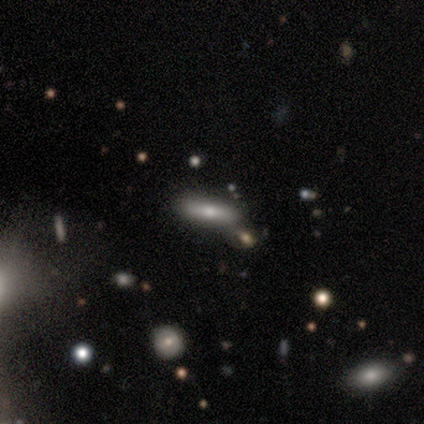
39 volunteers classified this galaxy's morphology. This is possibly a smooth galaxy (56%). How rounded: likely cigar-shaped (77%). Merging: likely none (73%).